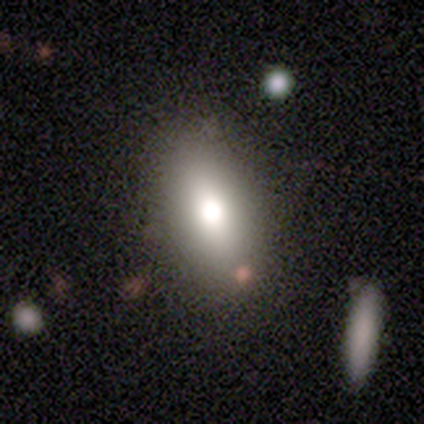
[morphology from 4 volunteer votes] Smooth or featured? smooth (75%)
How rounded? in between (67%)
Merging? none (100%)